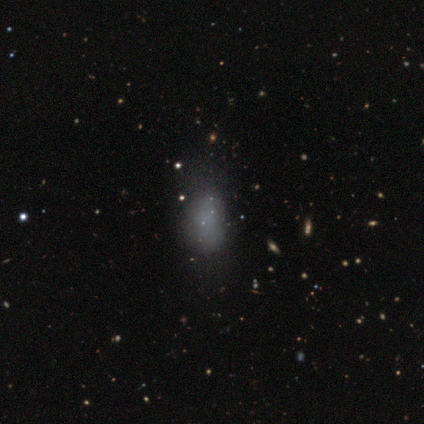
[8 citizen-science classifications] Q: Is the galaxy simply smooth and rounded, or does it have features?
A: smooth — 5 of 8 (62%).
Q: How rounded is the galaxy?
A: in between — 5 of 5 (100%).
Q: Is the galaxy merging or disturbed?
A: minor disturbance — 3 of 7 (43%).